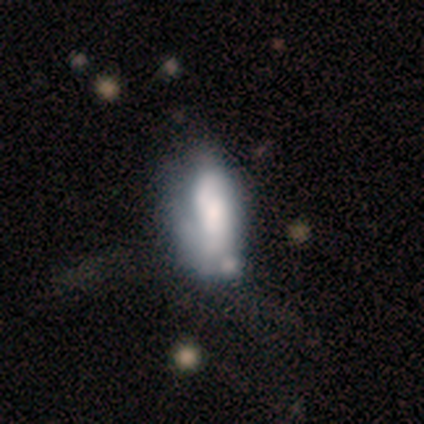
Overall: featured or disk (100%). Edge-on disk: no (100%). Bar: no (75%). Spiral arms: yes (75%). Spiral arm count: 2 (67%; 1 33%). Spiral winding: medium (67%; tight 33%). Bulge size: small (50%; large 25%). Merging: merger (50%; minor disturbance 25%).